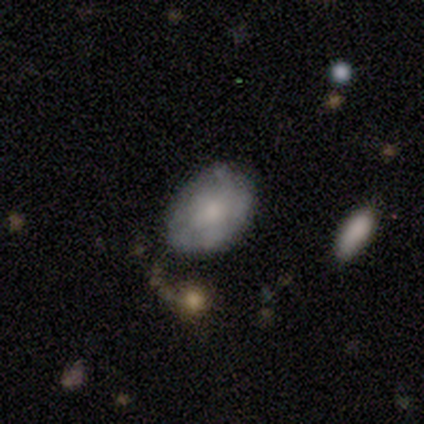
Overall: smooth (62%; featured or disk 31%). How rounded: in between (96%). Merging: none (64%; minor disturbance 33%).